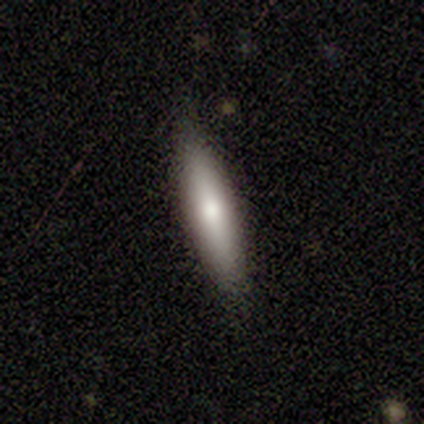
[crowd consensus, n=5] This appears to be a smooth galaxy with no disk features (100%) that is cigar-shaped (80%). Merging: none (100%).